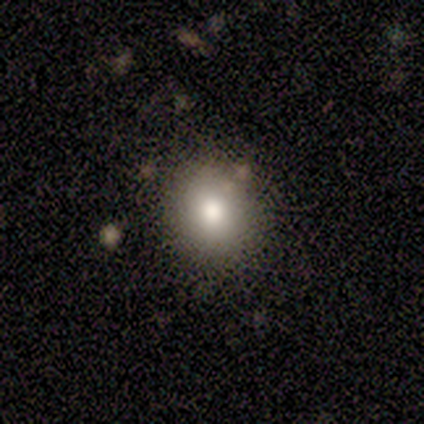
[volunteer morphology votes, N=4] Smooth or featured: smooth — 75% (star or artifact — 25%)
How rounded: round — 67% (in between — 33%)
Merging: none — 100%